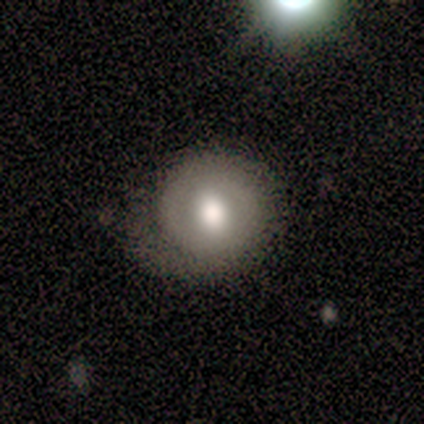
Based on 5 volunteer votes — smooth_or_featured: smooth (p=0.60) [alt: featured or disk p=0.40]
how_rounded: round (p=0.67) [alt: in between p=0.33]
merging: none (p=0.40) [tied with: minor disturbance p=0.40]